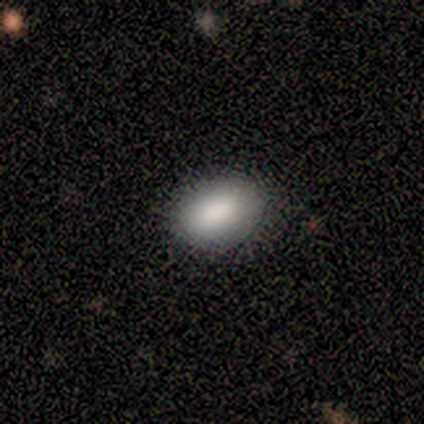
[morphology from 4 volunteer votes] Overall: smooth (75%). How rounded: in between (100%). Merging: none (100%).